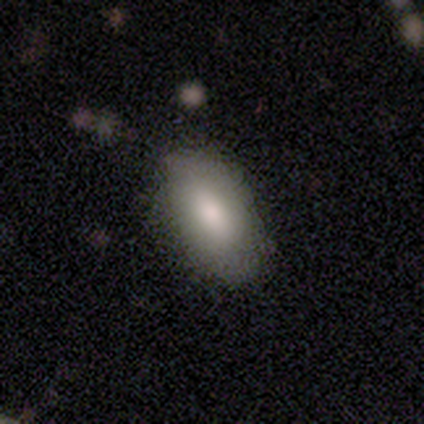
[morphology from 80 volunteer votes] type=smooth (75%); roundness=in between (95%); merging=none (82%).